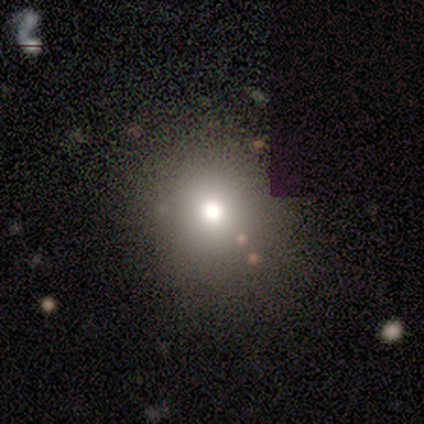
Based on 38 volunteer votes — This is likely a smooth galaxy (66%). How rounded: clearly round (96%). Merging: clearly none (89%).